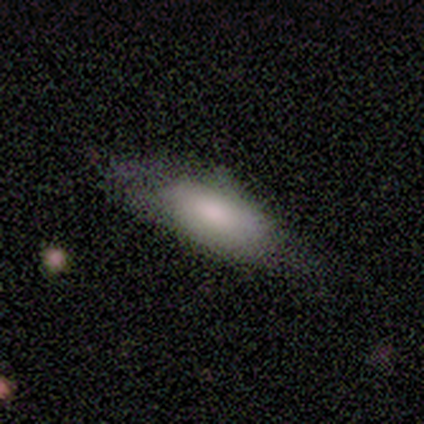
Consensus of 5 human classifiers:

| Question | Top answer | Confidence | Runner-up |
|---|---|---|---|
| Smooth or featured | featured or disk | 60% | smooth (40%) |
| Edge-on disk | yes | 67% | no (33%) |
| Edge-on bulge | none | 50% | tied: rounded (50%) |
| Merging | minor disturbance | 60% | none (40%) |